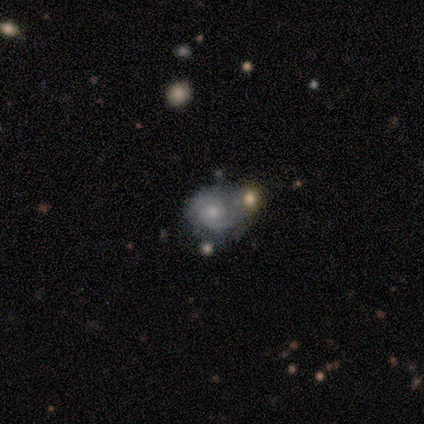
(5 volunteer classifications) Q: Smooth or featured?
A: featured or disk (60%); runner-up: smooth (40%)
Q: Edge-on disk?
A: no (100%)
Q: Bar?
A: no (67%); runner-up: weak (33%)
Q: Spiral arms?
A: yes (100%)
Q: Spiral winding?
A: medium (67%); runner-up: tight (33%)
Q: Spiral arm count?
A: 2 (100%)
Q: Bulge size?
A: moderate (67%); runner-up: small (33%)
Q: Merging?
A: none (60%); runner-up: major disturbance (20%)